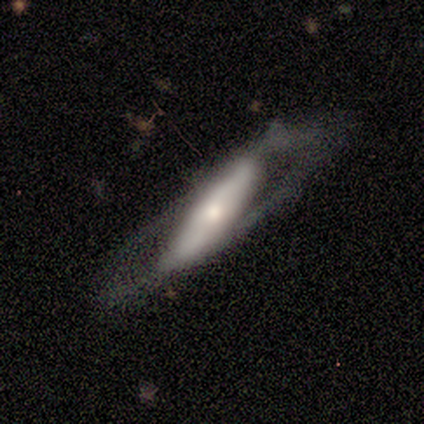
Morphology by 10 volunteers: This appears to be a featured or disk galaxy (80%) viewed edge-on (50%, tied with no) with a boxy central bulge (50%, tied with rounded). Merging: none (78%).